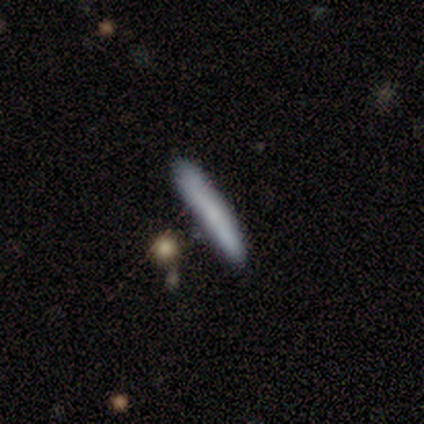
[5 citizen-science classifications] Volunteers were most divided on "merging": none: 60%, minor disturbance: 20%, merger: 20%, major disturbance: 0%. More confident: how rounded — cigar-shaped (100%); smooth or featured — smooth (80%).